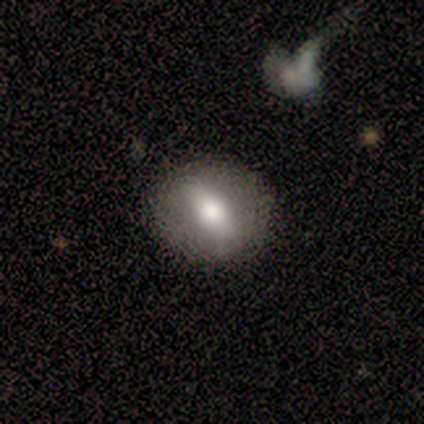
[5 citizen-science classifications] Morphology: type=smooth (60%); roundness=round (100%); merging=none (100%).